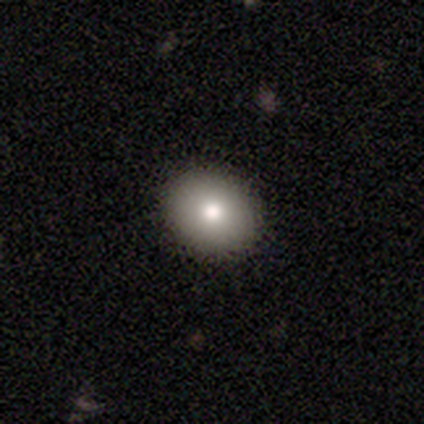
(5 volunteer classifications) Smooth or featured? smooth (100%)
How rounded? round (80%)
Merging? none (100%)